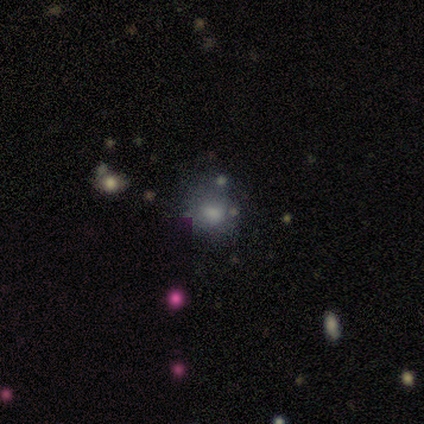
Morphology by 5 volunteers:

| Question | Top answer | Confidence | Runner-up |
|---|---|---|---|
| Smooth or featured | smooth | 60% | featured or disk (20%) |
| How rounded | round | 100% | — |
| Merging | none | 50% | minor disturbance (25%) |